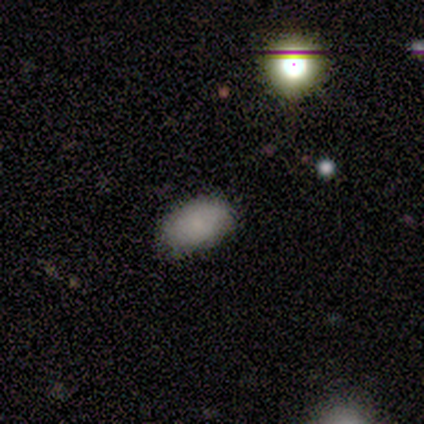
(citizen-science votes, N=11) Smooth or featured: smooth — 91% (featured or disk — 9%)
How rounded: in between — 90% (round — 10%)
Merging: none — 91% (minor disturbance — 9%)